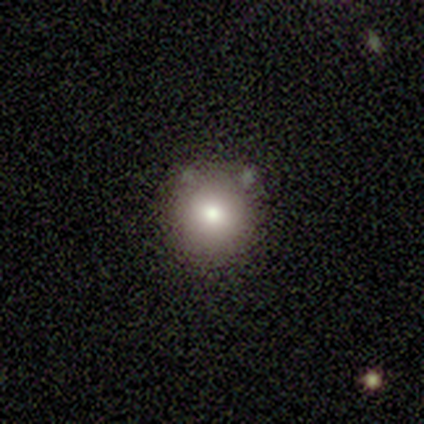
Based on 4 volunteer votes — Morphology: type=smooth (100%); roundness=round (100%); merging=none (100%).